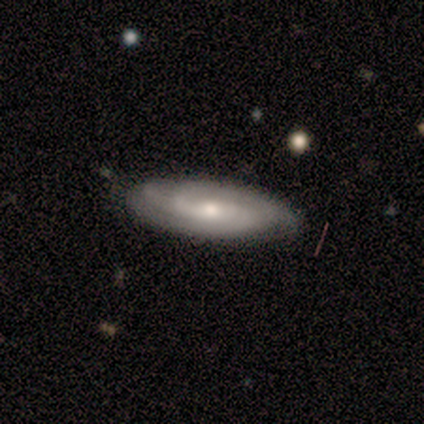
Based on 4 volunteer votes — smooth-or-featured: featured or disk: 100% | smooth: 0% | star or artifact: 0%
  disk-edge-on: no: 100% | yes: 0%
    bar: no: 100% | strong: 0% | weak: 0%
    has-spiral-arms: yes: 75% | no: 25%
      spiral-winding: tight: 67% | medium: 33% | loose: 0%
      spiral-arm-count: can't tell: 67% | 2: 33% | 1: 0% | 3: 0% | 4: 0% | more than 4: 0%
    bulge-size: small: 75% | moderate: 25% | dominant: 0% | large: 0% | none: 0%
  merging: none: 100% | minor disturbance: 0% | major disturbance: 0% | merger: 0%